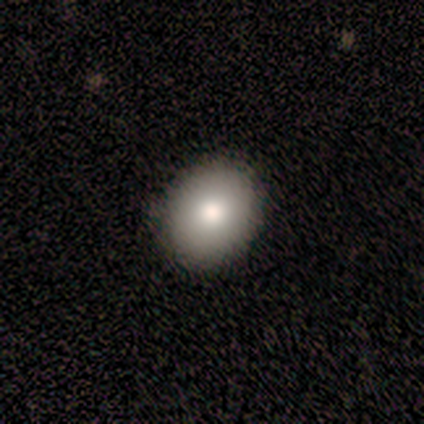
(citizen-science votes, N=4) This is possibly a smooth galaxy (50%, tied with featured or disk). How rounded: possibly round (50%, tied with in between). Merging: clearly none (100%).